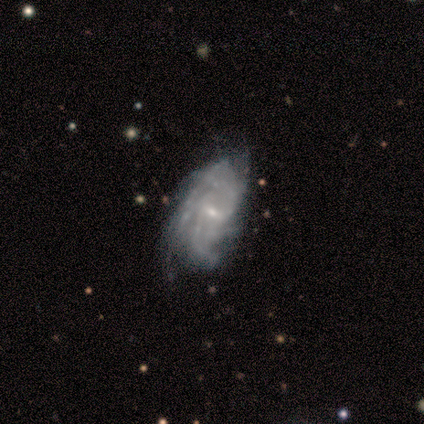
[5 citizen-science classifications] Smooth or featured? 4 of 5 (80%) said featured or disk. Edge-on disk? 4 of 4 (100%) said no. Bar? 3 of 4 (75%) said weak. Spiral arms? 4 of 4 (100%) said yes. Spiral winding? 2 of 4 (50%) said loose. Spiral arm count? 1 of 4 (25%, tied with 3, more than 4 and can't tell) said 2. Bulge size? 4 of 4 (100%) said small. Merging? 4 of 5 (80%) said none.